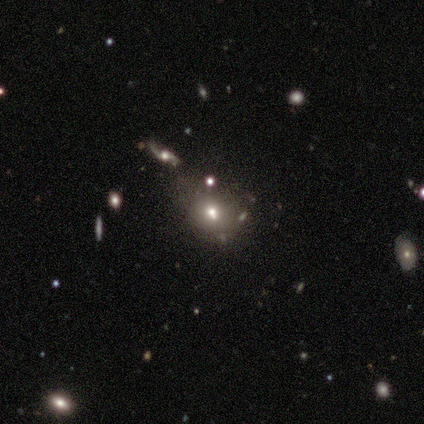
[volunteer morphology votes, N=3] Overall: smooth (33%, tied with featured or disk and star or artifact). How rounded: round (100%). Merging: none (50%, tied with major disturbance).